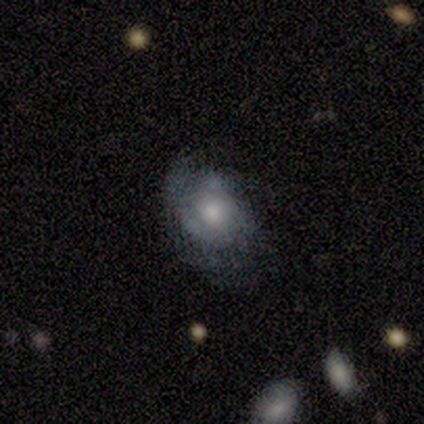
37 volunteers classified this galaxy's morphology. Smooth or featured? featured or disk (62%)
Edge-on disk? no (91%)
Bar? no (76%)
Spiral arms? yes (71%)
Spiral winding? tight (53%)
Spiral arm count? can't tell (47%)
Bulge size? moderate (67%)
Merging? none (53%)